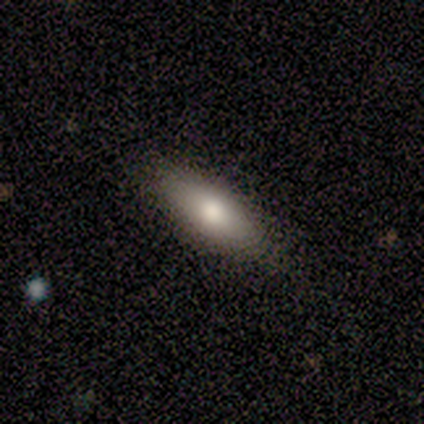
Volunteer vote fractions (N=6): Smooth or featured: smooth — 50% (featured or disk — 33%)
How rounded: in between — 67% (cigar-shaped — 33%)
Merging: none — 80% (minor disturbance — 20%)